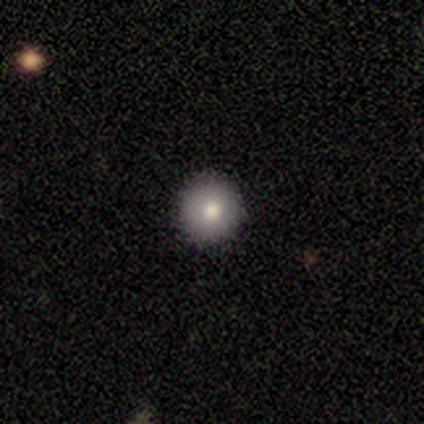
smooth_or_featured: smooth (p=1.00)
how_rounded: round (p=1.00)
merging: none (p=1.00)